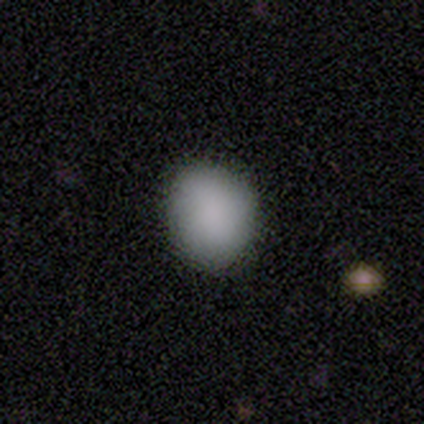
A smooth galaxy with no disk features (92%) that is round (50%, tied with in between). Merging: none (92%).